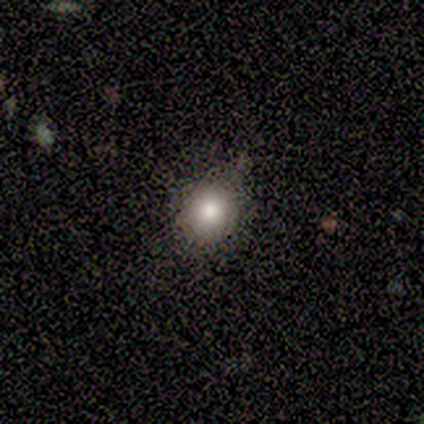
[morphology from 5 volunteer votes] Overall: smooth (100%). How rounded: round (80%). Merging: none (80%).